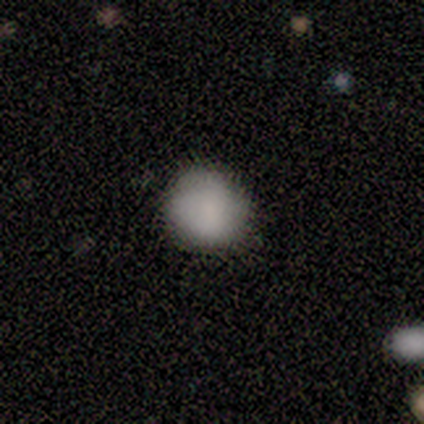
Smooth or featured: smooth — 91% (featured or disk — 5%)
How rounded: round — 89% (in between — 11%)
Merging: none — 44% (minor disturbance — 8%)